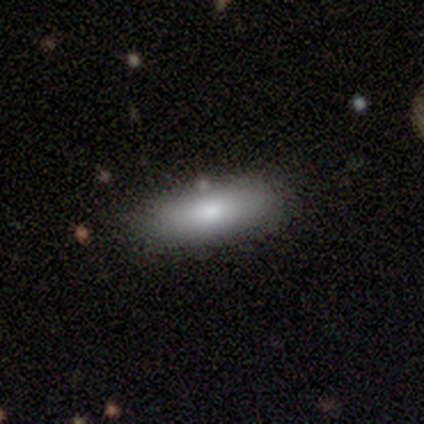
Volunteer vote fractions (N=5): Smooth or featured? 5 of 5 (100%) said smooth. How rounded? 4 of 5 (80%) said in between. Merging? 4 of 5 (80%) said none.